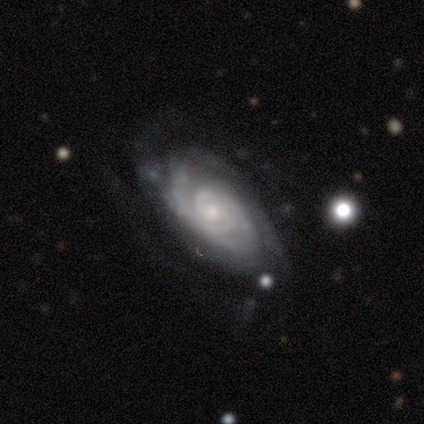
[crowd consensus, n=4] Q: Smooth or featured?
A: featured or disk (100%)
Q: Edge-on disk?
A: no (100%)
Q: Bar?
A: no (75%); runner-up: weak (25%)
Q: Spiral arms?
A: yes (100%)
Q: Spiral winding?
A: tight (75%); runner-up: medium (25%)
Q: Spiral arm count?
A: 2 (50%); runner-up: 3 (25%)
Q: Bulge size?
A: moderate (75%); runner-up: small (25%)
Q: Merging?
A: none (100%)